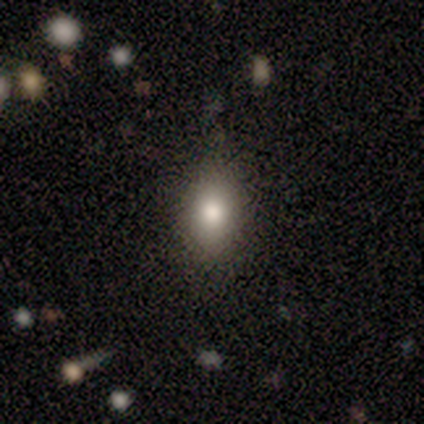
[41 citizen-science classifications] smooth 78%, star or artifact 15%, featured or disk 7%. Down the decision tree: how rounded — in between (81%); merging — none (69%).